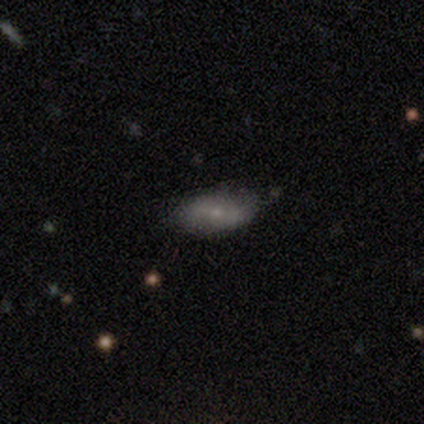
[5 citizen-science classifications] Smooth or featured? smooth (80%)
How rounded? in between (100%)
Merging? none (50%, tied with minor disturbance)